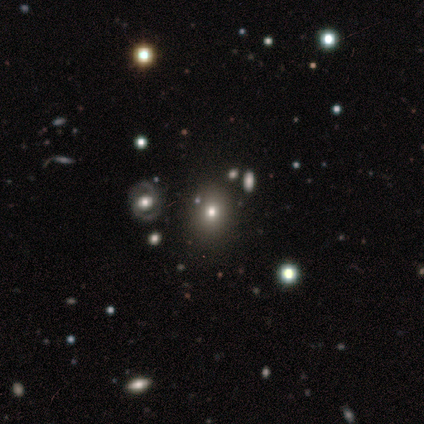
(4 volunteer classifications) Smooth or featured: smooth — 75% (star or artifact — 25%)
How rounded: round — 100%
Merging: none — 100%